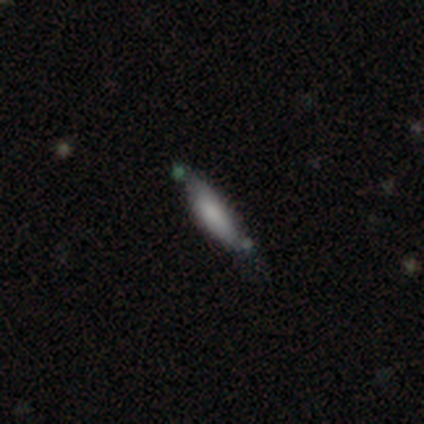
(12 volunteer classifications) Smooth or featured? smooth (75%)
How rounded? cigar-shaped (56%)
Merging? none (67%)